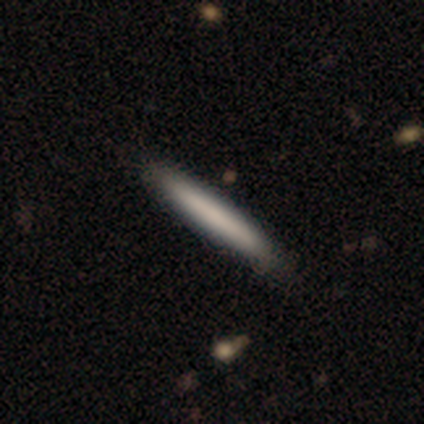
This is clearly a smooth galaxy (100%). How rounded: clearly cigar-shaped (100%). Merging: clearly none (80%).